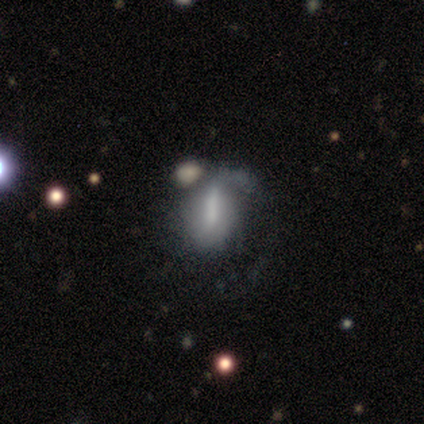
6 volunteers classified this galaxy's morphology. Smooth or featured? featured or disk (67%)
Edge-on disk? no (100%)
Bar? strong (75%)
Spiral arms? yes (50%, tied with no)
Spiral winding? loose (100%)
Spiral arm count? 1 (100%)
Bulge size? none (50%)
Merging? minor disturbance (40%, tied with major disturbance)